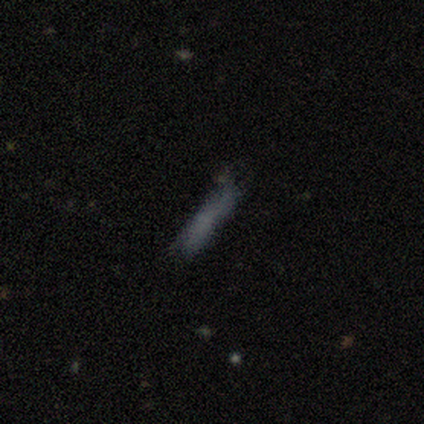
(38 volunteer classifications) Q: Smooth or featured?
A: smooth (63%); runner-up: featured or disk (29%)
Q: How rounded?
A: cigar-shaped (79%); runner-up: in between (17%)
Q: Merging?
A: none (57%); runner-up: minor disturbance (31%)